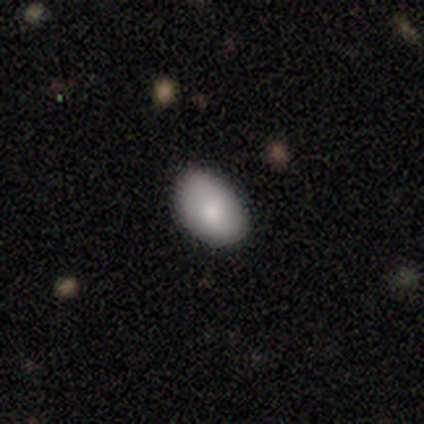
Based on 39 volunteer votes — This appears to be a smooth galaxy with no disk features (74%) that is in between round and cigar-shaped (90%). Merging: none (78%).